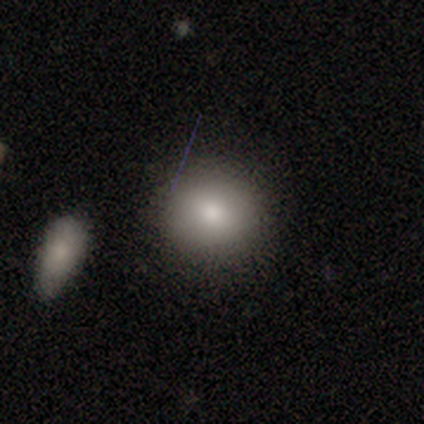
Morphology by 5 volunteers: type=smooth (100%); roundness=round (100%); merging=none (100%).